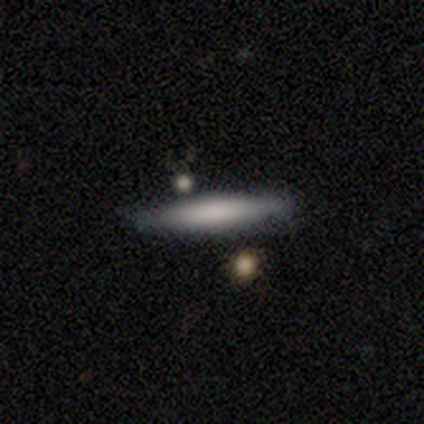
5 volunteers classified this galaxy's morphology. Smooth or featured?
  - smooth: 100% *
  - featured or disk: 0%
  - star or artifact: 0%
How rounded?
  - cigar-shaped: 100% *
  - round: 0%
  - in between: 0%
Merging?
  - none: 80% *
  - minor disturbance: 20%
  - major disturbance: 0%
  - merger: 0%